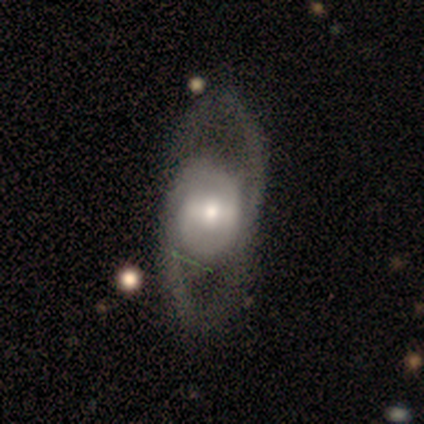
A featured or disk galaxy (60%) with a strong bar (33%, tied with weak and no), 1 (50%, tied with can't tell) loose (100%) spiral arms (67%) and a small central bulge (67%).

Vote fractions:
- Smooth or featured? featured or disk: 60% / smooth: 40% / star or artifact: 0%
- Edge-on disk? no: 100% / yes: 0%
- Bar? strong: 33% (tied) / weak: 33% (tied) / no: 33% (tied)
- Spiral arms? yes: 67% / no: 33%
- Spiral winding? loose: 100% / tight: 0% / medium: 0%
- Spiral arm count? 1: 50% (tied) / can't tell: 50% (tied) / 2: 0% / 3: 0% / 4: 0% / more than 4: 0%
- Bulge size? small: 67% / moderate: 33% / dominant: 0% / large: 0% / none: 0%
- Merging? none: 60% / major disturbance: 40% / minor disturbance: 0% / merger: 0%